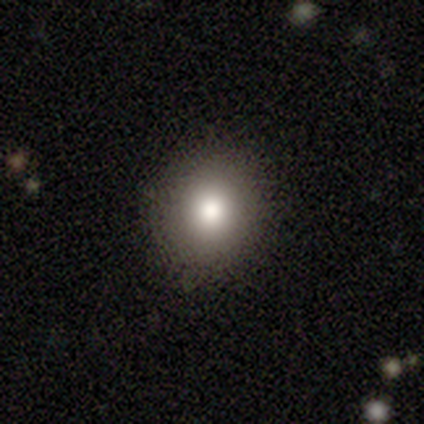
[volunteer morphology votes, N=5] Volunteers were most divided on "how rounded": in between: 75%, round: 25%, cigar-shaped: 0%. More confident: merging — none (100%); smooth or featured — smooth (80%).